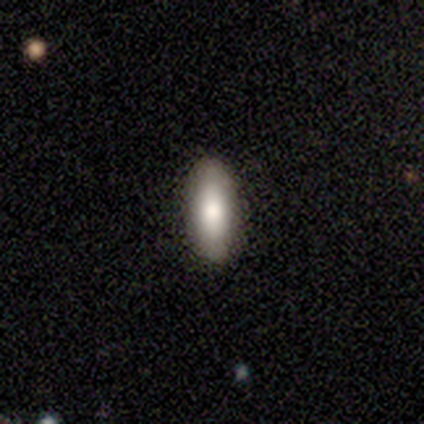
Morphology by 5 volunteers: Smooth or featured? 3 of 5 (60%) said smooth. How rounded? 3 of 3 (100%) said in between. Merging? 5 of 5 (100%) said none.